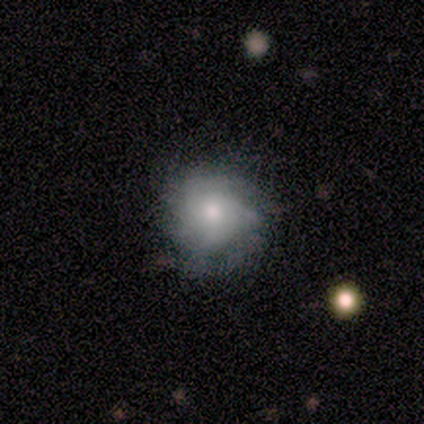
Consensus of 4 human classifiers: Q: Smooth or featured?
A: featured or disk (75%); runner-up: star or artifact (25%)
Q: Edge-on disk?
A: no (100%)
Q: Bar?
A: no (100%)
Q: Spiral arms?
A: yes (100%)
Q: Spiral winding?
A: tight (67%); runner-up: medium (33%)
Q: Spiral arm count?
A: 2 (33%); tied with: 3 (33%); can't tell (33%)
Q: Bulge size?
A: small (100%)
Q: Merging?
A: none (67%); runner-up: minor disturbance (33%)